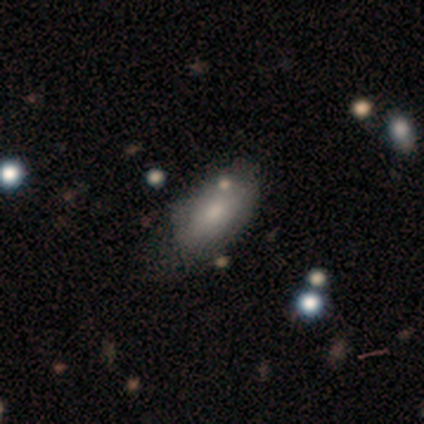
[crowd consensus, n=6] Smooth or featured? smooth (83%)
How rounded? in between (100%)
Merging? none (60%)